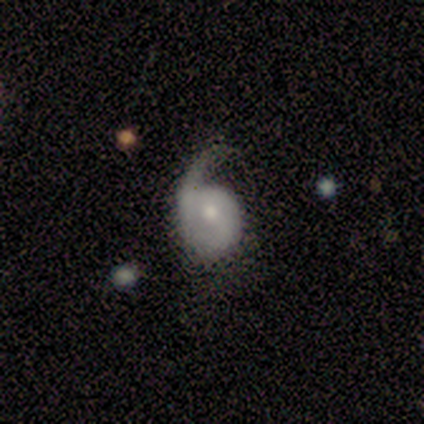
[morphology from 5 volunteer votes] featured or disk 80%, smooth 20%, star or artifact 0%. Down the decision tree: edge-on disk — no (100%); bar — no (50%); spiral arms — yes (75%); spiral arm count — 1 (100%); spiral winding — loose (67%); bulge size — small (100%); merging — none (60%).